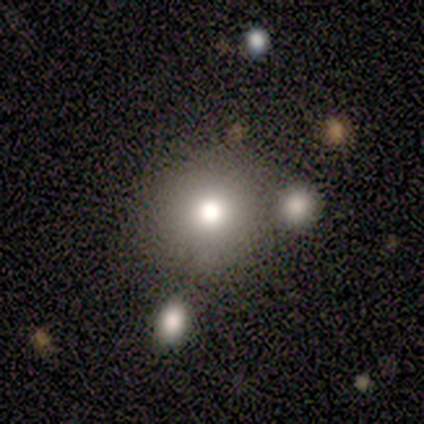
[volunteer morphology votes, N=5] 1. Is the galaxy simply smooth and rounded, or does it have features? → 60% smooth, 20% featured or disk, 20% star or artifact.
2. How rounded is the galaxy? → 100% round, 0% in between, 0% cigar-shaped.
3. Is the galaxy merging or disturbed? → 50% none, 25% minor disturbance, 25% merger, 0% major disturbance.